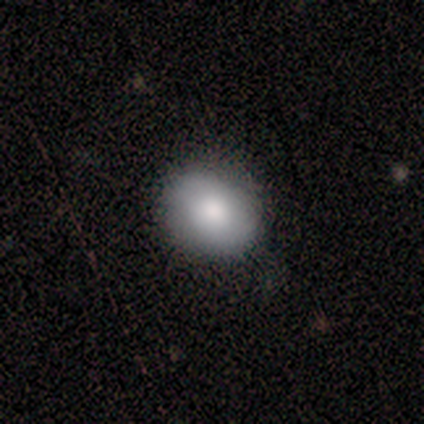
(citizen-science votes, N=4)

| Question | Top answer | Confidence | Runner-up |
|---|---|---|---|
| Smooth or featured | smooth | 75% | star or artifact (25%) |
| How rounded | in between | 67% | round (33%) |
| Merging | none | 100% | — |